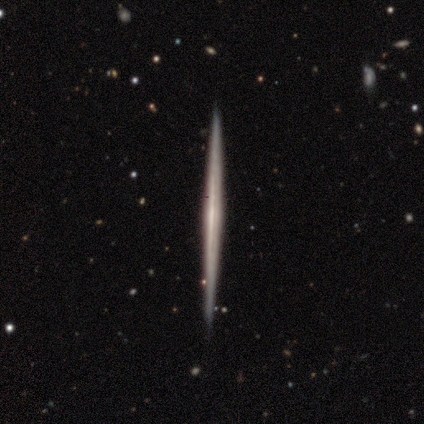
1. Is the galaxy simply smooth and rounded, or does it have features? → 80% featured or disk, 20% smooth, 0% star or artifact.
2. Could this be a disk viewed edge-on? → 100% yes, 0% no.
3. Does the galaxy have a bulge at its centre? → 100% none, 0% boxy, 0% rounded.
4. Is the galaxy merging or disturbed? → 100% none, 0% minor disturbance, 0% major disturbance, 0% merger.